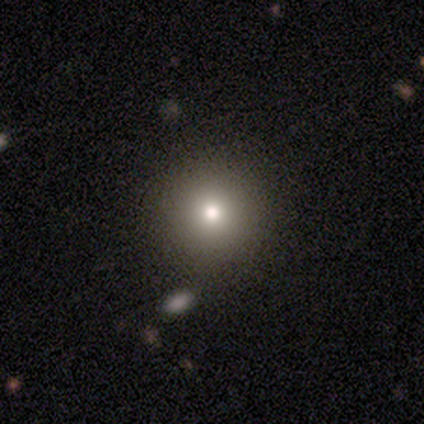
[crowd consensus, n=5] Morphology: type=featured or disk (40%, tied with star or artifact); edge-on=no (100%); bar=no (100%); spiral arms=no (100%); bulge=moderate (50%, tied with small); merging=none (100%).